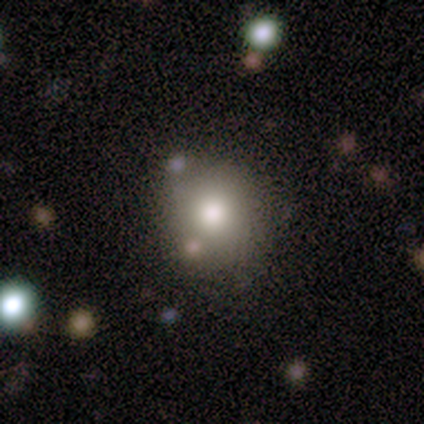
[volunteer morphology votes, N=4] A smooth galaxy with no disk features (75%) that is round (100%). Merging: none (100%).